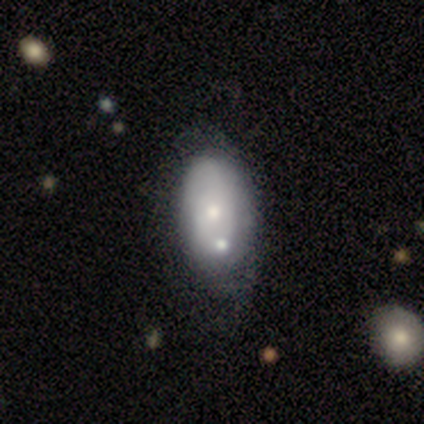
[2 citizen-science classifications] Q: Smooth or featured?
A: featured or disk (100%)
Q: Edge-on disk?
A: no (100%)
Q: Bar?
A: no (100%)
Q: Spiral arms?
A: yes (50%); tied with: no (50%)
Q: Spiral winding?
A: tight (100%)
Q: Spiral arm count?
A: can't tell (100%)
Q: Bulge size?
A: small (100%)
Q: Merging?
A: none (50%); tied with: merger (50%)